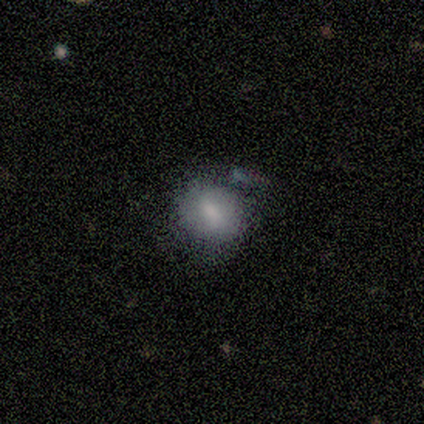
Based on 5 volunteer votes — Q: Smooth or featured?
A: smooth (60%); runner-up: star or artifact (40%)
Q: How rounded?
A: round (67%); runner-up: in between (33%)
Q: Merging?
A: minor disturbance (67%); runner-up: none (33%)